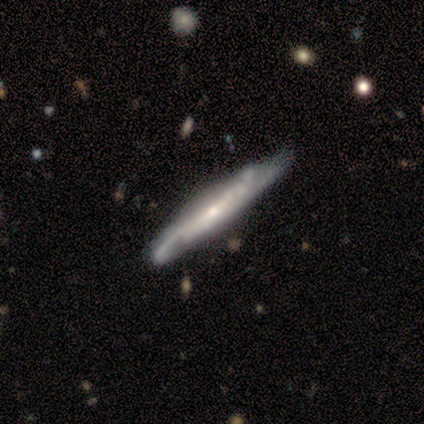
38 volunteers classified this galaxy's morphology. A featured or disk galaxy (89%) viewed edge-on (65%) with a rounded central bulge (50%).

Vote fractions:
- Smooth or featured? featured or disk: 89% / smooth: 11% / star or artifact: 0%
- Edge-on disk? yes: 65% / no: 35%
- Edge-on bulge? rounded: 50% / none: 27% / boxy: 23%
- Merging? none: 58% / minor disturbance: 29% / major disturbance: 8% / merger: 5%